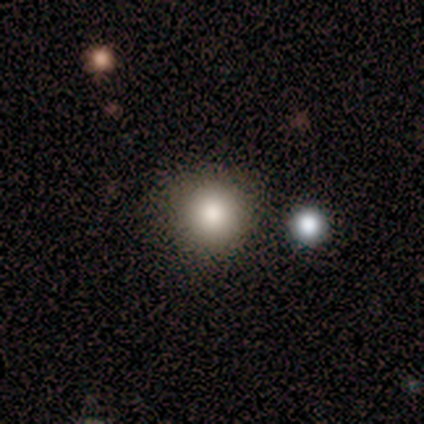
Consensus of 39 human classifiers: A smooth galaxy with no disk features (85%) that is round (94%). Merging: none (58%).